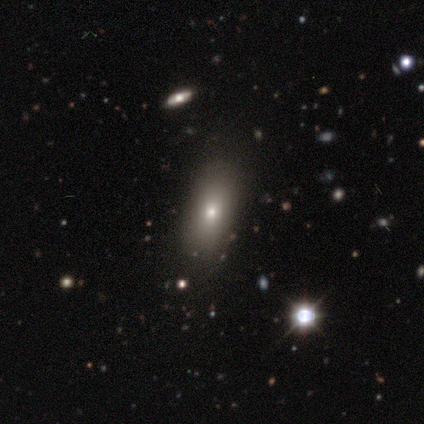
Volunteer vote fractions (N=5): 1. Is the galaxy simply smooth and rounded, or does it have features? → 60% smooth, 20% featured or disk, 20% star or artifact.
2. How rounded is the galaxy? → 67% in between, 33% cigar-shaped, 0% round.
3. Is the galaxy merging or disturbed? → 100% none, 0% minor disturbance, 0% major disturbance, 0% merger.